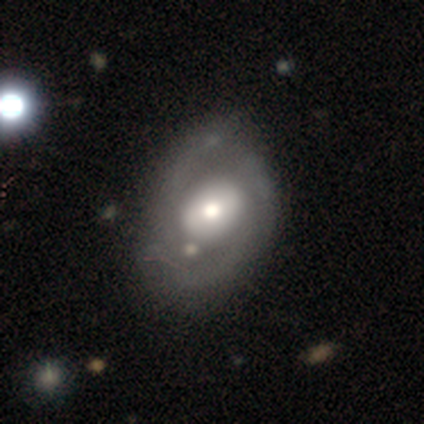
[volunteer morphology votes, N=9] Q: Smooth or featured?
A: featured or disk (78%); runner-up: smooth (11%)
Q: Edge-on disk?
A: no (100%)
Q: Bar?
A: no (71%); runner-up: strong (14%)
Q: Spiral arms?
A: no (71%); runner-up: yes (29%)
Q: Bulge size?
A: large (57%); runner-up: moderate (29%)
Q: Merging?
A: none (62%); runner-up: minor disturbance (25%)